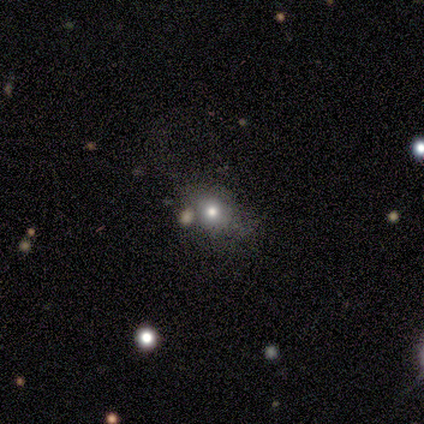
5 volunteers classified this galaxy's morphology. Smooth or featured? smooth (60%)
How rounded? in between (67%)
Merging? major disturbance (50%)